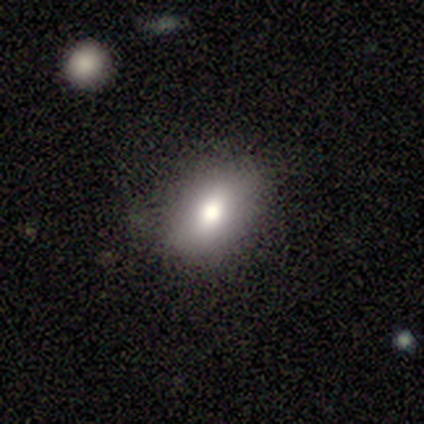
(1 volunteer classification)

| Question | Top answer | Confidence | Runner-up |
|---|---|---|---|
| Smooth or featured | star or artifact | 100% | — |